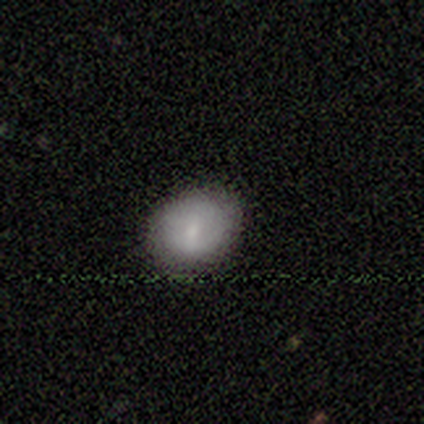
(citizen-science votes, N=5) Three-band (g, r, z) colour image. It shows a smooth galaxy with no disk features (80%) that is round (50%, tied with in between). Merging: none (80%).